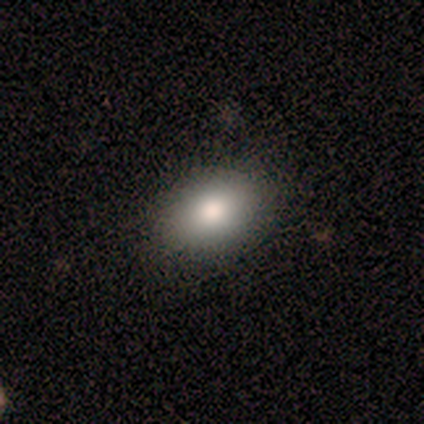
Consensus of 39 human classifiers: A smooth galaxy with no disk features (85%) that is in between round and cigar-shaped (88%). Merging: none (91%).